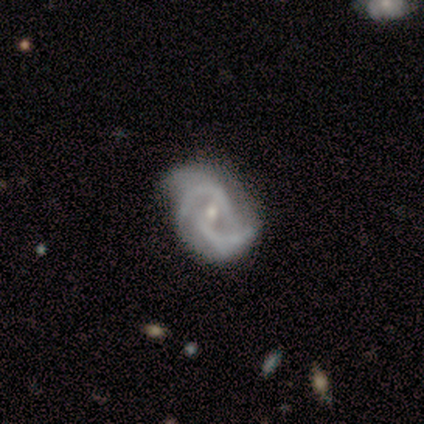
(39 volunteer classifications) A featured or disk galaxy (82%) with a weak bar (59%), 2 (65%) tight (42%, tied with medium) spiral arms (97%) and a small central bulge (56%).

Vote fractions:
- Smooth or featured? featured or disk: 82% / star or artifact: 15% / smooth: 3%
- Edge-on disk? no: 100% / yes: 0%
- Bar? weak: 59% / no: 34% / strong: 6%
- Spiral arms? yes: 97% / no: 3%
- Spiral winding? tight: 42% (tied) / medium: 42% (tied) / loose: 16%
- Spiral arm count? 2: 65% / 3: 23% / 4: 6% / can't tell: 6% / 1: 0% / more than 4: 0%
- Bulge size? small: 56% / moderate: 38% / dominant: 3% / none: 3% / large: 0%
- Merging? none: 67% / minor disturbance: 21% / major disturbance: 12% / merger: 0%